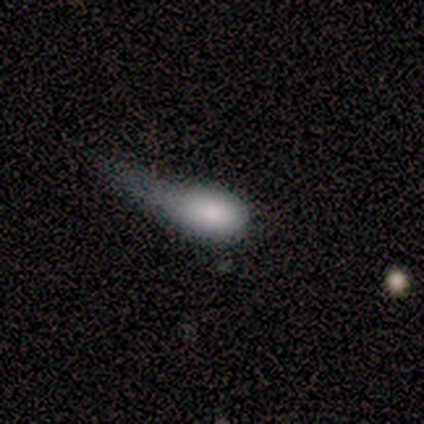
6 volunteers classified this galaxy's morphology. Q: Smooth or featured?
A: smooth (83%); runner-up: featured or disk (17%)
Q: How rounded?
A: in between (80%); runner-up: round (20%)
Q: Merging?
A: minor disturbance (50%); tied with: major disturbance (50%)